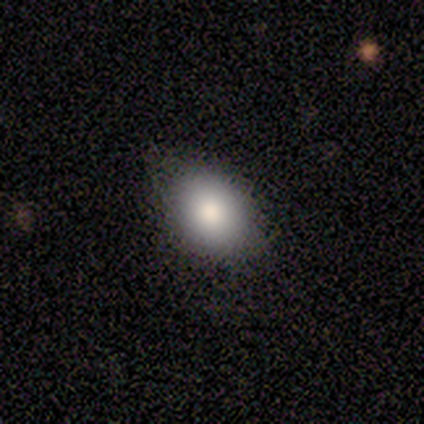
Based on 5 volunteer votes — Smooth or featured? 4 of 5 (80%) said smooth. How rounded? 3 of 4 (75%) said in between. Merging? 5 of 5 (100%) said none.